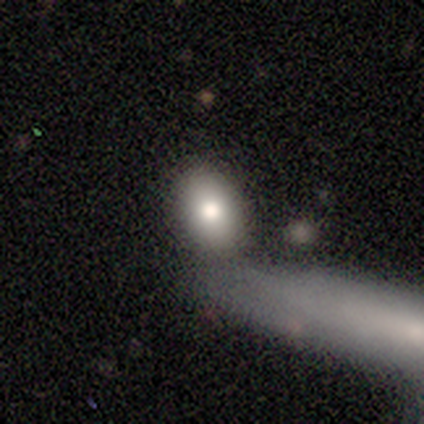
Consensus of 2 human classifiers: Volunteers were most divided on "smooth or featured" (2-way tie): smooth: 50%, featured or disk: 50%, star or artifact: 0%. More confident: how rounded — in between (100%); merging — none (100%).